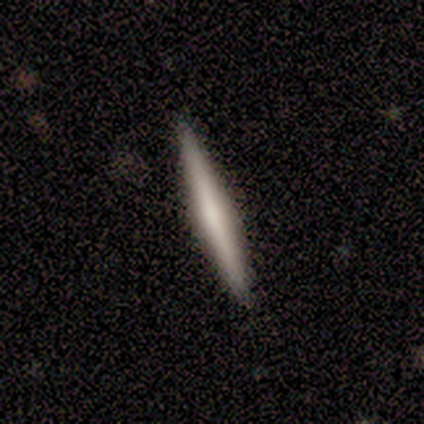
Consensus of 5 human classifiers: This is likely a featured or disk galaxy (60%). It is clearly viewed edge-on (100%). Edge-on bulge: likely none (67%). Merging: clearly none (100%).